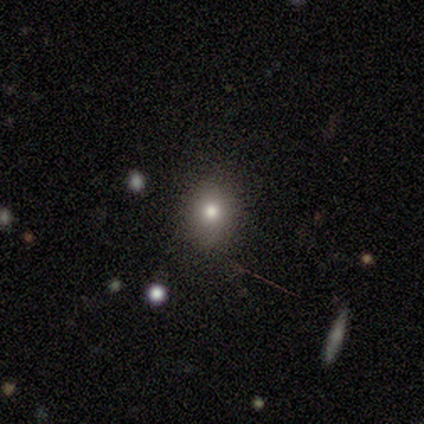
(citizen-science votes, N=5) smooth_or_featured: smooth (p=0.60) [alt: star or artifact p=0.40]
how_rounded: round (p=0.67) [alt: in between p=0.33]
merging: none (p=1.00)